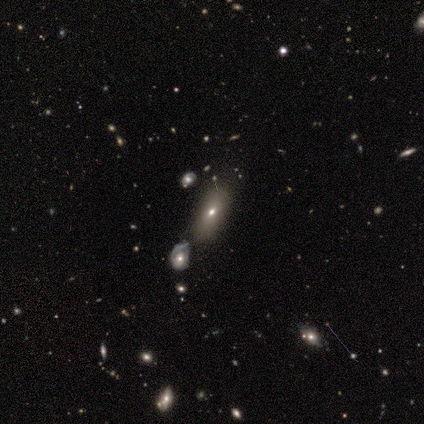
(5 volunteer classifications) This is clearly a smooth galaxy (80%). How rounded: likely in between (75%). Merging: likely none (60%).